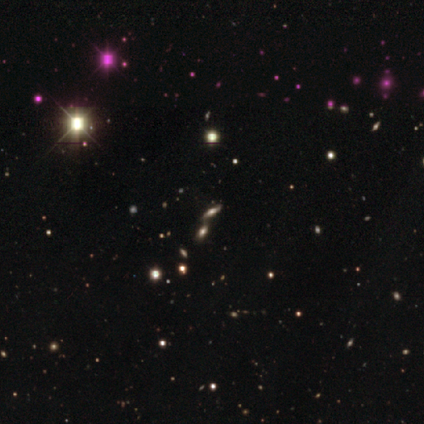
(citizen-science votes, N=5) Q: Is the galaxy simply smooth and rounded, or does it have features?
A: star or artifact — 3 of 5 (60%).